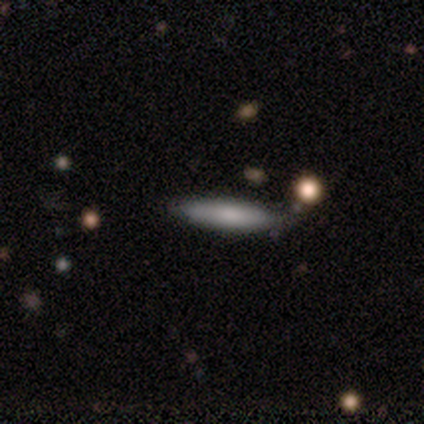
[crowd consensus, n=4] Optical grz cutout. It shows a featured or disk galaxy (75%) viewed edge-on (100%) with a rounded central bulge (67%). Merging: none (67%).